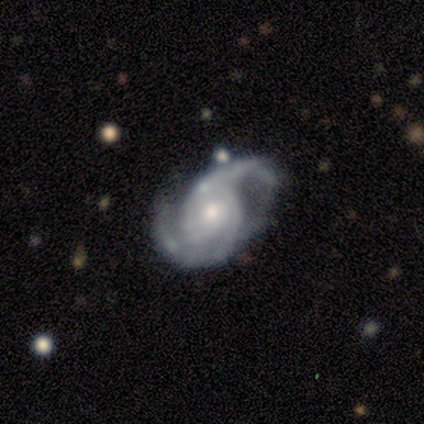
Volunteers were most divided on "bulge size": moderate: 62%, small: 38%, dominant: 0%, large: 0%, none: 0%. More confident: smooth or featured — featured or disk (100%); edge-on disk — no (100%); spiral arms — yes (100%); spiral arm count — 2 (100%); bar — no (88%); spiral winding — medium (75%); merging — none (62%).